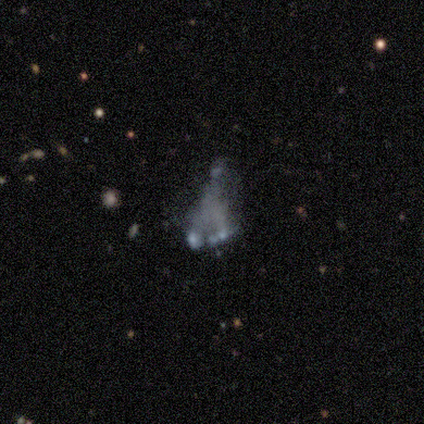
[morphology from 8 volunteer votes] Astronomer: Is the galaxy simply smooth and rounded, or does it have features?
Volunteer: featured or disk — 75%.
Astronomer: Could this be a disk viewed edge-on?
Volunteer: no — 100%.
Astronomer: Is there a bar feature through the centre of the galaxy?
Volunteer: no — 100%.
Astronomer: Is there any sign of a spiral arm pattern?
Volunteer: no — 100%.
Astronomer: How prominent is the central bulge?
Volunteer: none — 83%.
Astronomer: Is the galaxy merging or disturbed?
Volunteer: major disturbance — 71%.